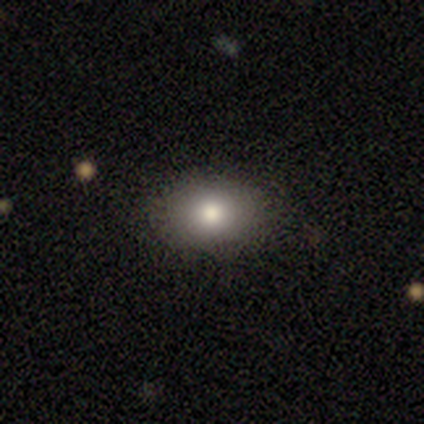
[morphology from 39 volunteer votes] smooth-or-featured: smooth: 74% | featured or disk: 15% | star or artifact: 10%
  how-rounded: in between: 76% | round: 24% | cigar-shaped: 0%
  merging: none: 94% | minor disturbance: 6% | major disturbance: 0% | merger: 0%